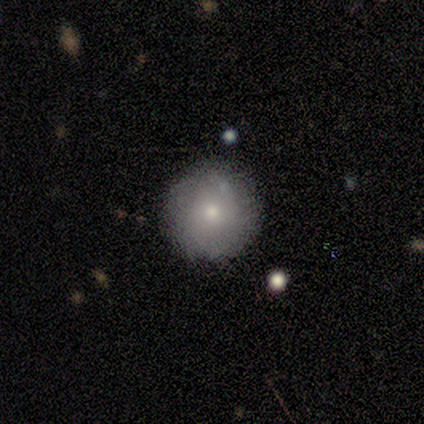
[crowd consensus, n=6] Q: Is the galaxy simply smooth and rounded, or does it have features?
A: smooth — 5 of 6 (83%).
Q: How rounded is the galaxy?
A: round — 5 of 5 (100%).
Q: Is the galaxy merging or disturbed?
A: none — 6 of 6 (100%).